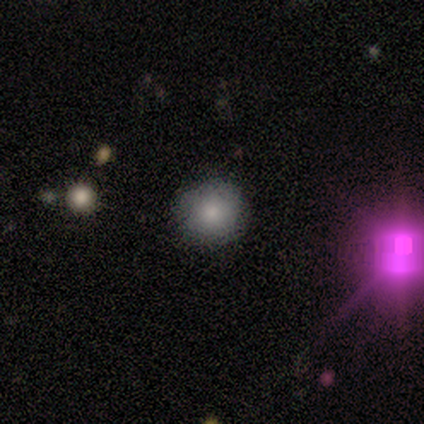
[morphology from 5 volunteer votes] smooth 80%, star or artifact 20%, featured or disk 0%. Down the decision tree: how rounded — round (100%); merging — none (100%).